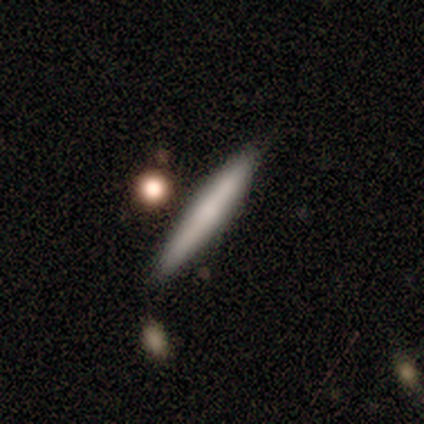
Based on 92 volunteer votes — Smooth or featured? 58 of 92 (63%) said smooth. How rounded? 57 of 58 (98%) said cigar-shaped. Merging? 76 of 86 (88%) said none.